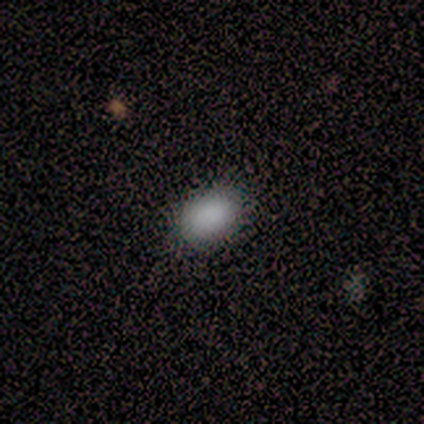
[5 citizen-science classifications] Smooth or featured: smooth — 100%
How rounded: in between — 80% (round — 20%)
Merging: none — 100%